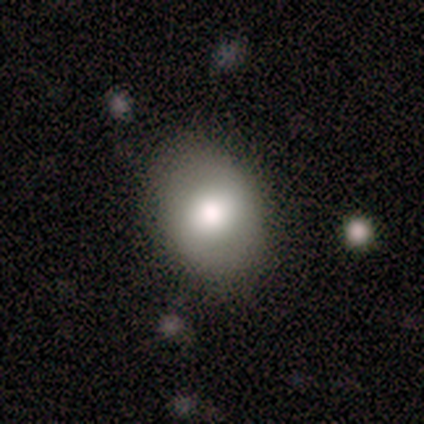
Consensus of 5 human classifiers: This appears to be a smooth galaxy with no disk features (100%) that is round (60%). Merging: none (80%).